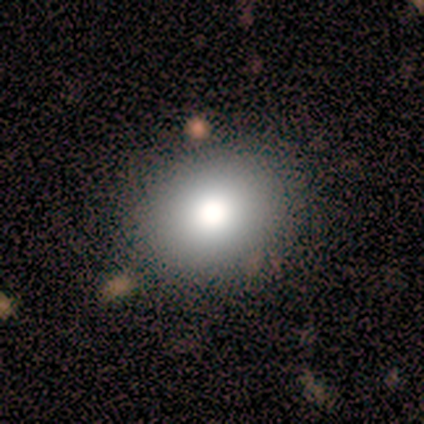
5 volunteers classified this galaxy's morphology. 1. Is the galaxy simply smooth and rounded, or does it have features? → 100% smooth, 0% featured or disk, 0% star or artifact.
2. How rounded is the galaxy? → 60% round, 40% in between, 0% cigar-shaped.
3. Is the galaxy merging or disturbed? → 80% none, 20% minor disturbance, 0% major disturbance, 0% merger.